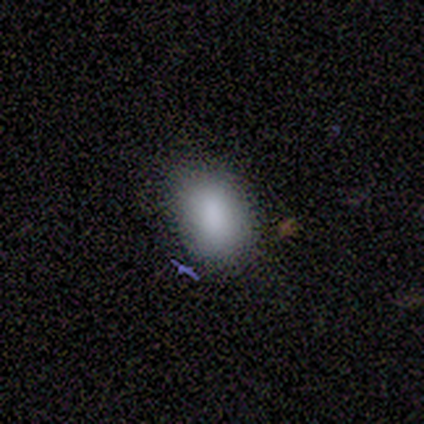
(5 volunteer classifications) This appears to be a smooth galaxy with no disk features (100%) that is in between round and cigar-shaped (100%). Merging: none (80%).